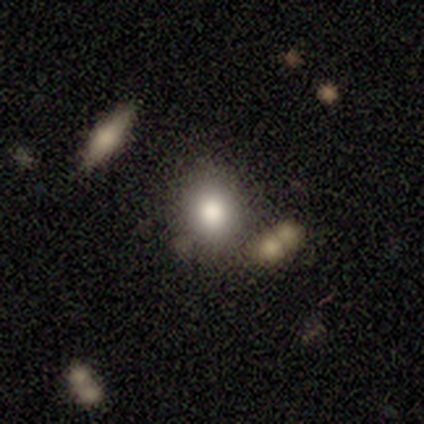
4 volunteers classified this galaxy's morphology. Smooth or featured?
  - smooth: 100% *
  - featured or disk: 0%
  - star or artifact: 0%
How rounded?
  - round: 50% * (tied)
  - in between: 50% * (tied)
  - cigar-shaped: 0%
Merging?
  - none: 75% *
  - minor disturbance: 25%
  - major disturbance: 0%
  - merger: 0%